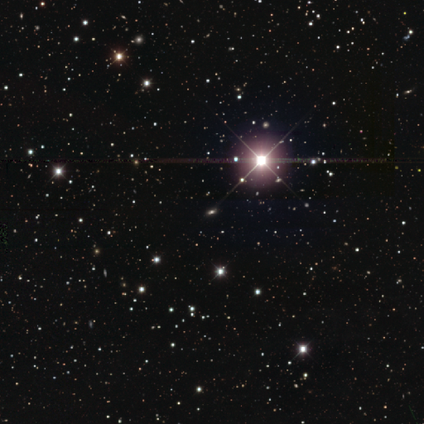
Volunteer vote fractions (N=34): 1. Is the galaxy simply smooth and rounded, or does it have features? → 74% star or artifact, 18% smooth, 9% featured or disk.